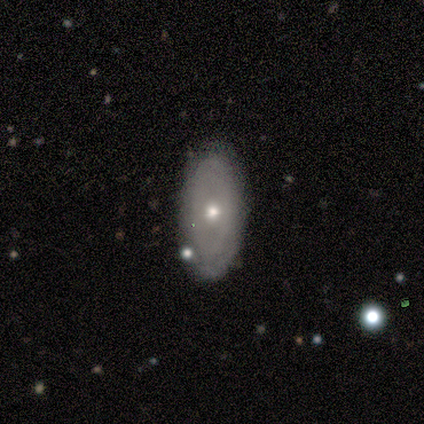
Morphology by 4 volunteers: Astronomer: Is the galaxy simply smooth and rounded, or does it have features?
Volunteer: smooth — 50%, tied with featured or disk at 50%.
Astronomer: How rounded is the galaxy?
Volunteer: in between — 50%, tied with cigar-shaped at 50%.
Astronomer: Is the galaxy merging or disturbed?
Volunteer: none — 100%.